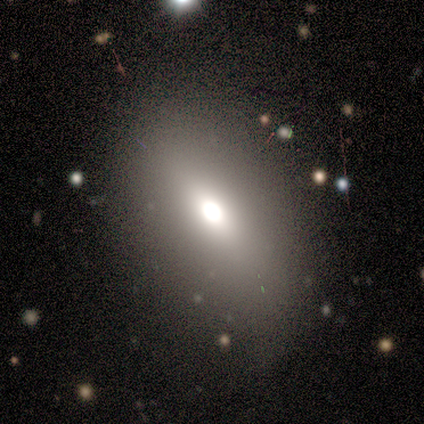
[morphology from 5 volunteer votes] A smooth galaxy with no disk features (80%) that is in between round and cigar-shaped (75%). Merging: none (100%).